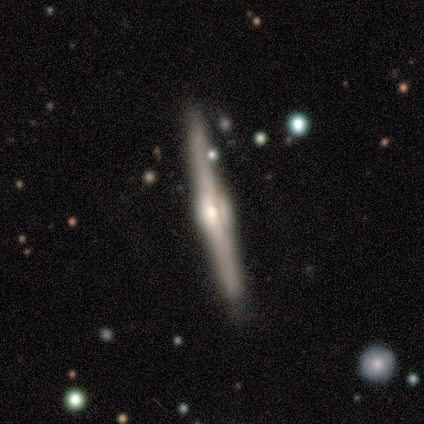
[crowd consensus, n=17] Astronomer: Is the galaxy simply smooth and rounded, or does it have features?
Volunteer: featured or disk — 94%.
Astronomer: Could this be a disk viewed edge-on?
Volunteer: yes — 100%.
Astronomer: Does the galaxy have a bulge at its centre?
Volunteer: rounded — 94%.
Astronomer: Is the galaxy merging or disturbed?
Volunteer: none — 94%.